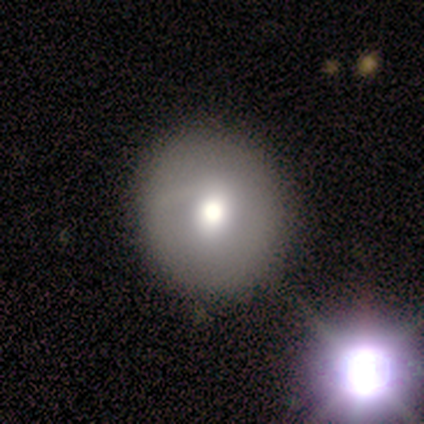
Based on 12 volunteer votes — This appears to be a smooth galaxy with no disk features (75%) that is round (100%). Merging: none (83%).